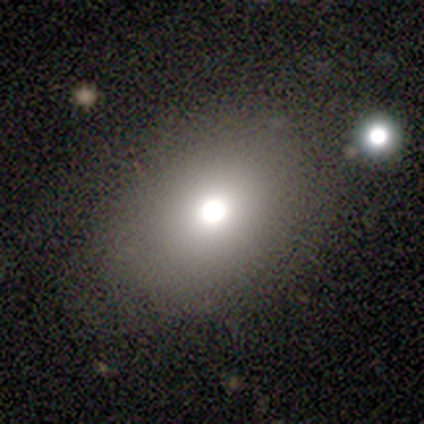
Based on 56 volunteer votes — A smooth galaxy with no disk features (70%) that is in between round and cigar-shaped (69%). Merging: none (78%).